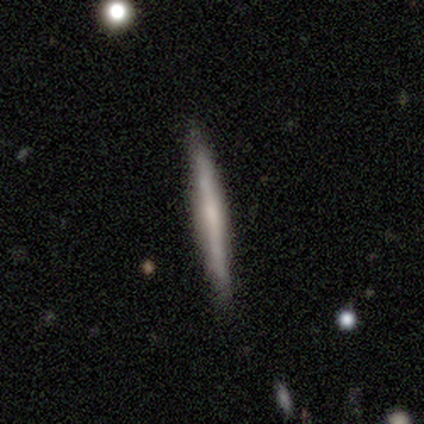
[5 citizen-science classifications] Morphology: type=smooth (80%); roundness=cigar-shaped (100%); merging=none (75%).